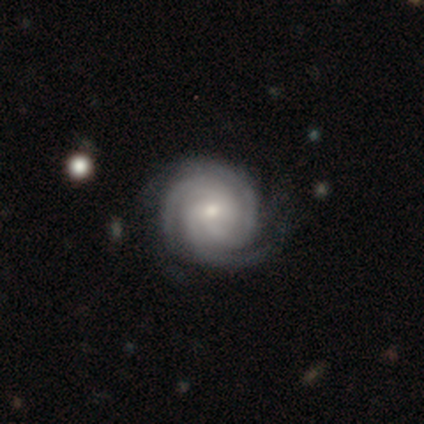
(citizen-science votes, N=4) This is clearly a featured or disk galaxy (100%). It is clearly not viewed edge-on (100%). Bar: possibly no (50%). Spiral arm pattern: clearly yes (100%). Spiral arm count: clearly 3 (100%). Spiral winding: clearly tight (100%). Central bulge: likely small (75%). Merging: clearly none (100%).